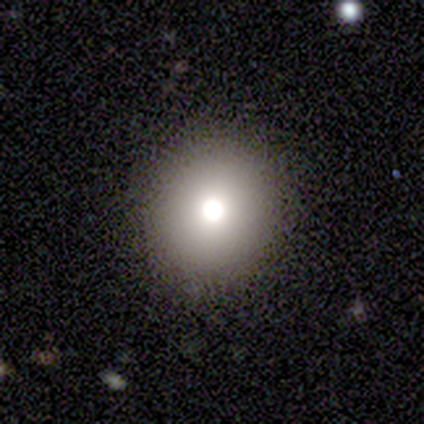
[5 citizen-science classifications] Smooth or featured? 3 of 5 (60%) said smooth. How rounded? 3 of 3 (100%) said round. Merging? 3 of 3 (100%) said none.